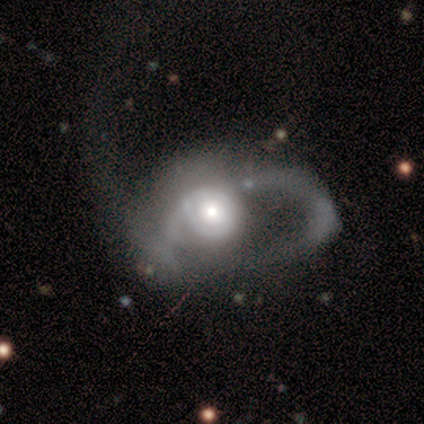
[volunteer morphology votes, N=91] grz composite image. It shows a featured or disk galaxy (75%) with no bar (88%), 2 (49%) loose (51%) spiral arms (51%) and a moderate central bulge (51%). Merging: major disturbance (76%).